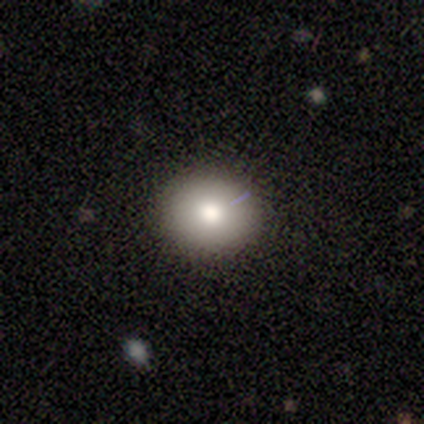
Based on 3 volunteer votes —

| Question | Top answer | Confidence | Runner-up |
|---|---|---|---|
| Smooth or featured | smooth | 100% | — |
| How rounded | round | 67% | in between (33%) |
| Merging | none | 100% | — |